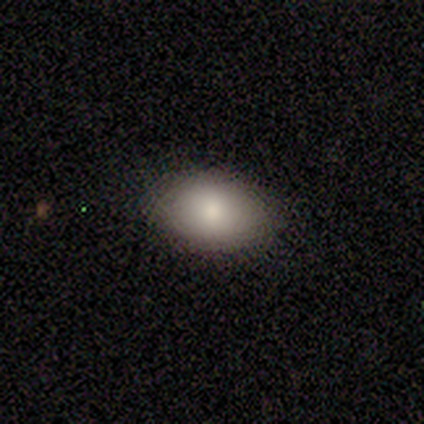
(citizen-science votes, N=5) This is clearly a smooth galaxy (100%). How rounded: clearly in between (80%). Merging: clearly none (100%).